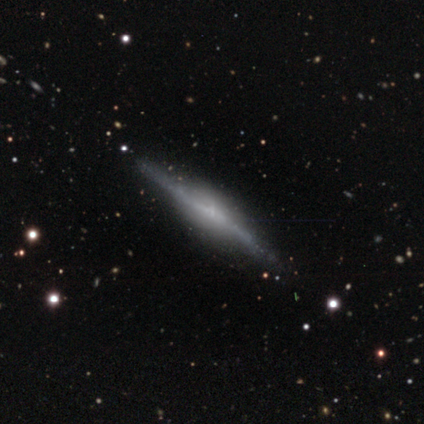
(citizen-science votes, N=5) Overall: featured or disk (80%). Edge-on disk: yes (100%). Edge-on bulge: rounded (75%). Merging: none (100%).